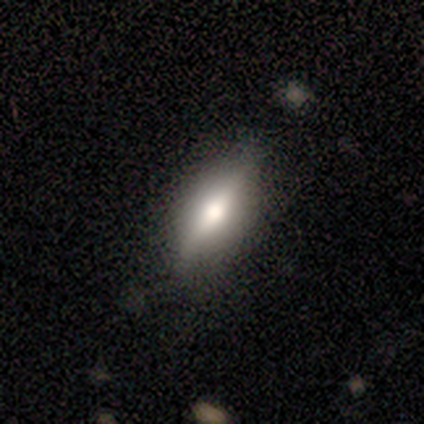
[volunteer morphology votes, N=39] Q: Smooth or featured?
A: smooth (54%); runner-up: featured or disk (44%)
Q: How rounded?
A: cigar-shaped (57%); runner-up: in between (38%)
Q: Merging?
A: none (79%); runner-up: minor disturbance (18%)